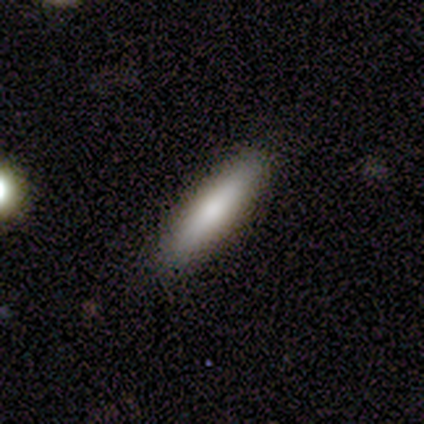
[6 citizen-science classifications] A smooth galaxy with no disk features (100%) that is cigar-shaped (100%). Merging: none (100%).